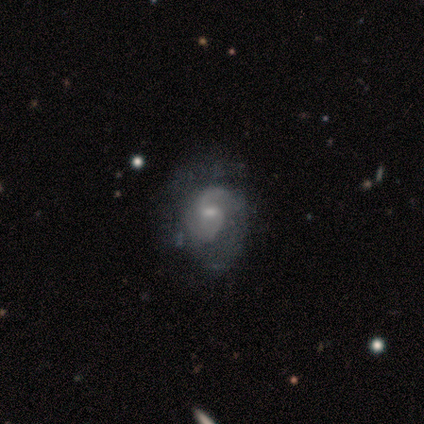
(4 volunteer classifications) This appears to be a featured or disk galaxy (100%) with a weak bar (75%), 2 (50%, tied with can't tell) tight (50%, tied with medium) spiral arms (100%) and a small central bulge (75%). Merging: none (75%).